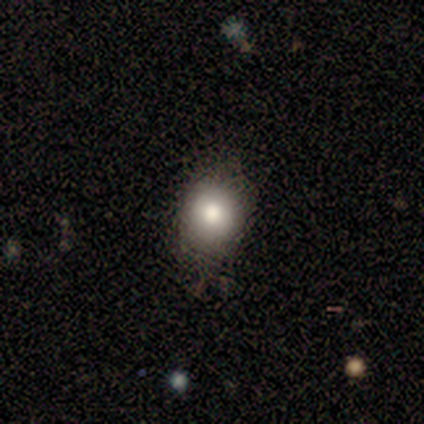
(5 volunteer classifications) Smooth or featured? smooth (100%)
How rounded? round (80%)
Merging? none (80%)